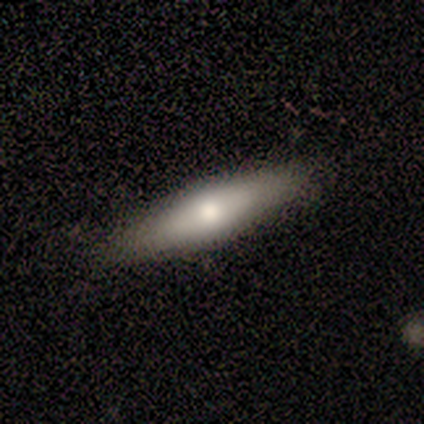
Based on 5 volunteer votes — Volunteers were most divided on "smooth or featured": smooth: 60%, featured or disk: 40%, star or artifact: 0%. More confident: merging — none (80%); how rounded — cigar-shaped (67%).